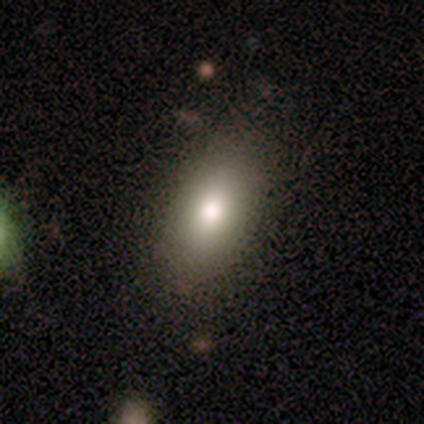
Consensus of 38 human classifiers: smooth 71%, featured or disk 18%, star or artifact 11%. Down the decision tree: how rounded — in between (96%); merging — none (74%).